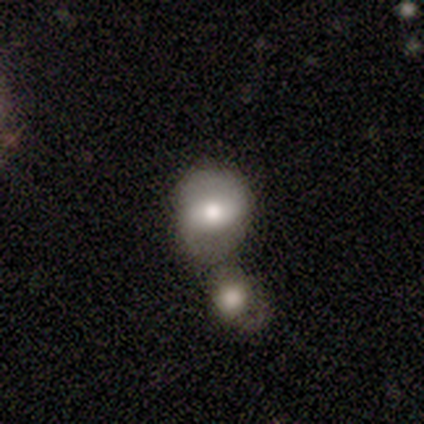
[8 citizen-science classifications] Morphology: type=featured or disk (62%); edge-on=no (80%); bar=strong (50%); spiral arms=yes (75%); winding=medium (67%); arm count=2 (100%); bulge=moderate (100%); merging=merger (71%).